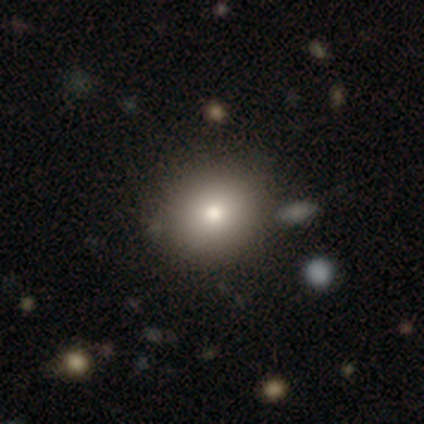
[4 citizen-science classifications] Volunteers were most divided on "merging": none: 75%, minor disturbance: 25%, major disturbance: 0%, merger: 0%. More confident: smooth or featured — smooth (100%); how rounded — round (100%).